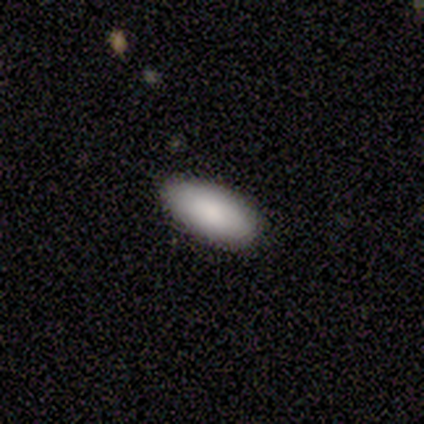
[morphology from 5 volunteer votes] Q: Smooth or featured?
A: smooth (100%)
Q: How rounded?
A: in between (100%)
Q: Merging?
A: none (100%)